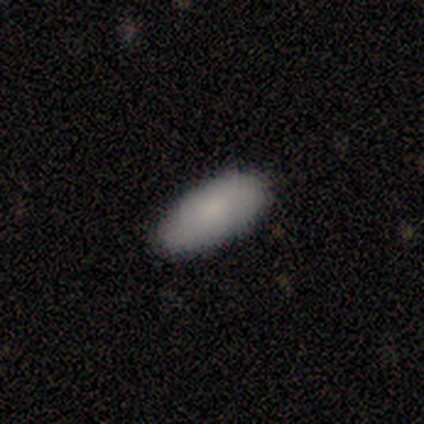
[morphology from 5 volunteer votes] Consensus on every question: smooth or featured — smooth (100%); how rounded — in between (100%); merging — none (100%).